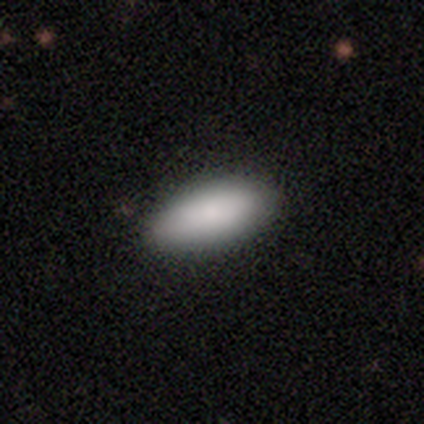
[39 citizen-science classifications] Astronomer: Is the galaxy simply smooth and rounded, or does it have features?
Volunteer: smooth — 87%.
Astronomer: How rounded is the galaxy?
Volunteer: in between — 71%.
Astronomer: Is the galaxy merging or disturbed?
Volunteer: none — 86%.